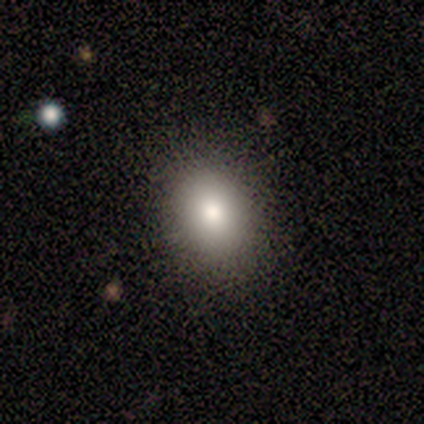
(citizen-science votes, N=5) A smooth galaxy with no disk features (100%) that is round (60%). Merging: none (100%).